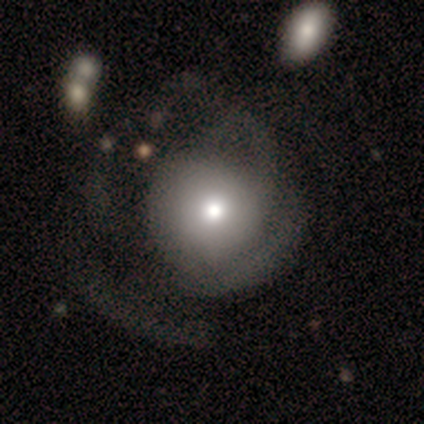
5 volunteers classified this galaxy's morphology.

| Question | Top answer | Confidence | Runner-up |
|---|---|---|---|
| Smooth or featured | smooth | 40% | tied: featured or disk (40%) |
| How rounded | round | 100% | — |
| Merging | none | 50% | tied: minor disturbance (50%) |